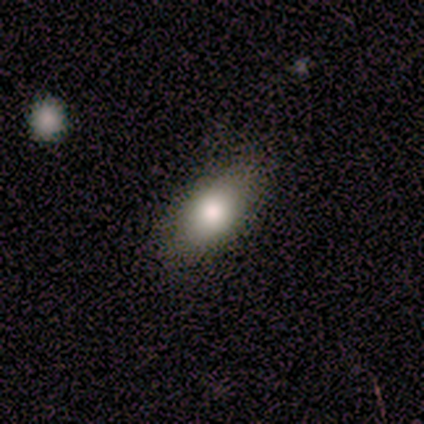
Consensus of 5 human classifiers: Morphology: type=smooth (80%); roundness=in between (100%); merging=none (100%).